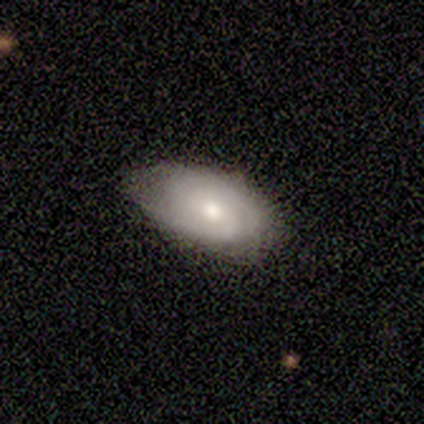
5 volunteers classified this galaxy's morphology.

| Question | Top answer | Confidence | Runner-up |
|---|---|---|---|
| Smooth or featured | featured or disk | 60% | smooth (40%) |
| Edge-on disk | no | 100% | — |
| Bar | no | 67% | weak (33%) |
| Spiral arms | yes | 100% | — |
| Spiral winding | medium | 67% | tight (33%) |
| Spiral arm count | can't tell | 67% | 2 (33%) |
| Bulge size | moderate | 67% | small (33%) |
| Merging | minor disturbance | 60% | none (40%) |